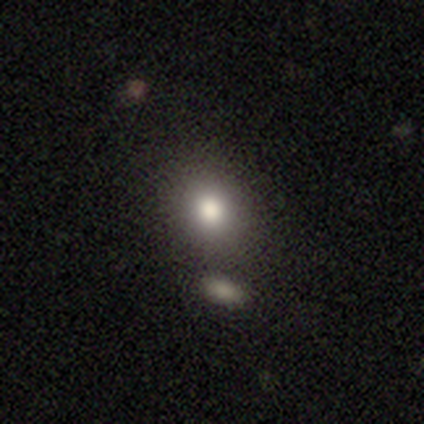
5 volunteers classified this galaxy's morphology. Volunteers were most divided on "how rounded": round: 60%, in between: 40%, cigar-shaped: 0%. More confident: smooth or featured — smooth (100%); merging — none (80%).